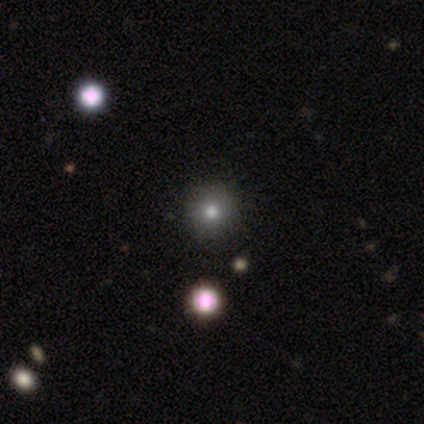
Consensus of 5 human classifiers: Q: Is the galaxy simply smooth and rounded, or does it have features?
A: smooth — 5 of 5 (100%).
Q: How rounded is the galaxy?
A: round — 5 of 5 (100%).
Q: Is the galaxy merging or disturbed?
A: none — 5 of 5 (100%).